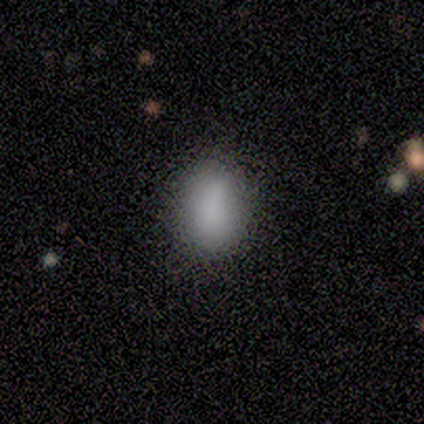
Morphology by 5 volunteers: smooth_or_featured: smooth (p=0.80) [alt: star or artifact p=0.20]
how_rounded: in between (p=0.75) [alt: round p=0.25]
merging: none (p=0.50) [tied with: minor disturbance p=0.50]